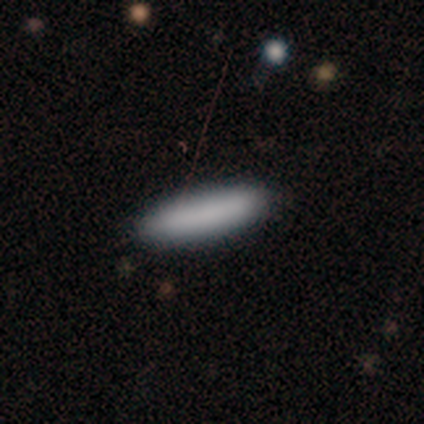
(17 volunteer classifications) smooth-or-featured: smooth: 94% | featured or disk: 6% | star or artifact: 0%
  how-rounded: cigar-shaped: 81% | in between: 19% | round: 0%
  merging: none: 88% | minor disturbance: 6% | major disturbance: 6% | merger: 0%